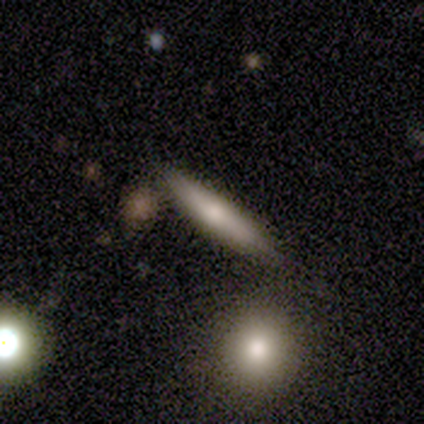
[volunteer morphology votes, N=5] A featured or disk galaxy (60%) viewed edge-on (100%) with a rounded central bulge (67%).

Vote fractions:
- Smooth or featured? featured or disk: 60% / smooth: 40% / star or artifact: 0%
- Edge-on disk? yes: 100% / no: 0%
- Edge-on bulge? rounded: 67% / none: 33% / boxy: 0%
- Merging? none: 80% / major disturbance: 20% / minor disturbance: 0% / merger: 0%